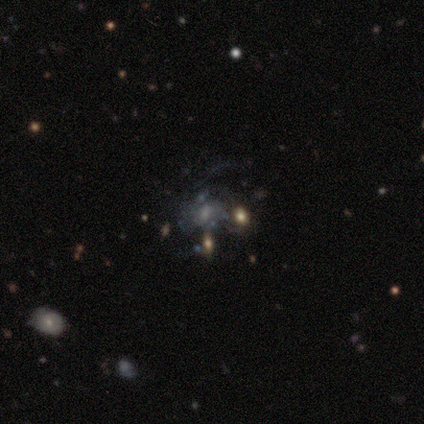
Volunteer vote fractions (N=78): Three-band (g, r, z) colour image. It shows a featured or disk galaxy (74%) with no bar (64%), medium (36%, tied with loose) spiral arms (57%) and a small central bulge (41%). Merging: none (38%).